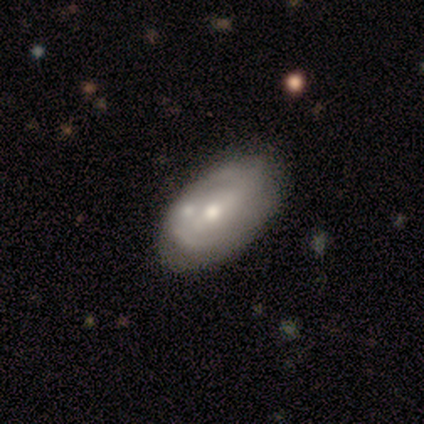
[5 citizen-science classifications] A smooth galaxy with no disk features (60%) that is in between round and cigar-shaped (100%). Merging: none (60%).